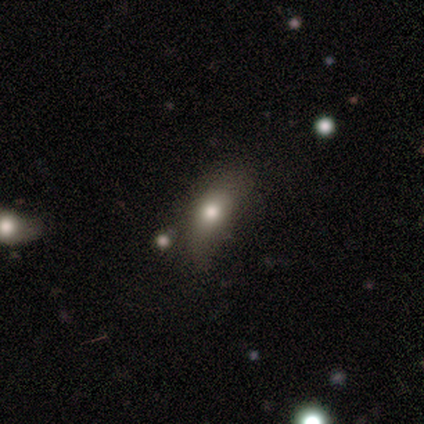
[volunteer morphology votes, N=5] Smooth or featured? smooth (100%)
How rounded? in between (60%)
Merging? minor disturbance (80%)